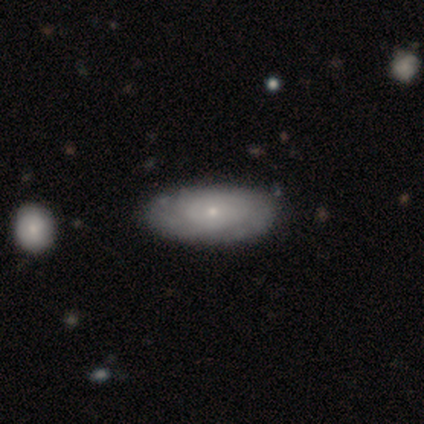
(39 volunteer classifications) A smooth galaxy with no disk features (49%, tied with featured or disk) that is in between round and cigar-shaped (89%).

Vote fractions:
- Smooth or featured? smooth: 49% (tied) / featured or disk: 49% (tied) / star or artifact: 3%
- How rounded? in between: 89% / round: 11% / cigar-shaped: 0%
- Merging? none: 66% / minor disturbance: 5% / major disturbance: 0% / merger: 0%